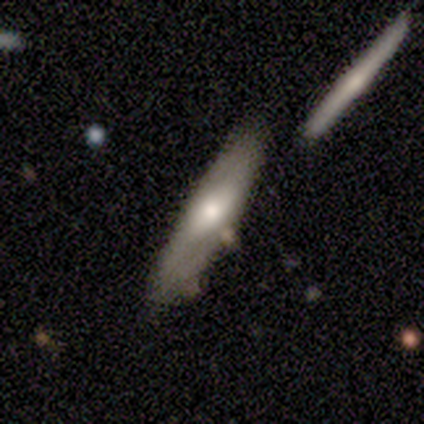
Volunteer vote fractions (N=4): smooth 50% (tied), featured or disk 50% (tied), star or artifact 0%. Down the decision tree: how rounded — cigar-shaped (100%); merging — none (75%).